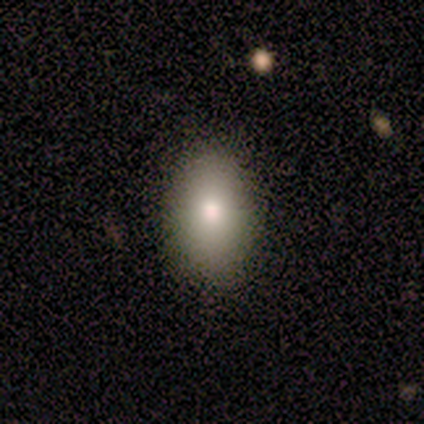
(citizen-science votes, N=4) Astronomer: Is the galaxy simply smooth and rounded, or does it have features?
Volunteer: smooth — 50%, tied with star or artifact at 50%.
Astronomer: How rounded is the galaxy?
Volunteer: in between — 100%.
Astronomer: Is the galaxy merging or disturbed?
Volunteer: none — 100%.